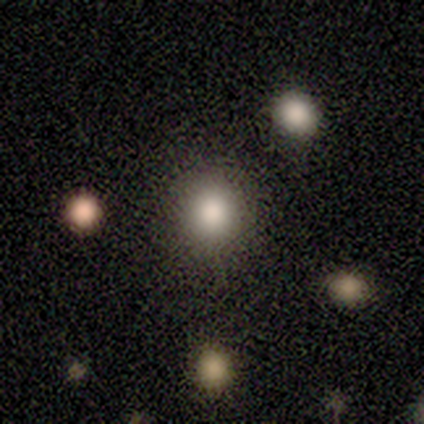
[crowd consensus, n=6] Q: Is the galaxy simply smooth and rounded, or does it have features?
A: smooth — 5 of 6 (83%).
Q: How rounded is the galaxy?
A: round — 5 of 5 (100%).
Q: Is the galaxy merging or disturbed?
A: none — 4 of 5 (80%).